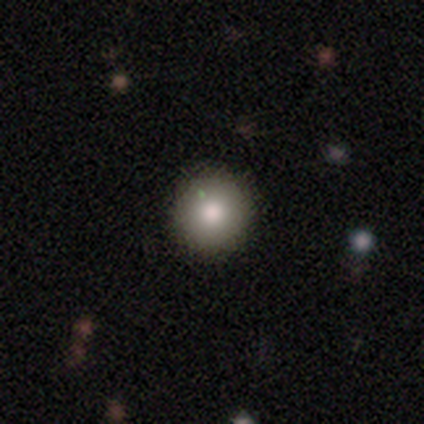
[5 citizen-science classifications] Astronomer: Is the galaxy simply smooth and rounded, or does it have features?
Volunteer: smooth — 80%.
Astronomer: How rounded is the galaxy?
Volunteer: round — 100%.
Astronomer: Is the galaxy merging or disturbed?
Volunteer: none — 100%.